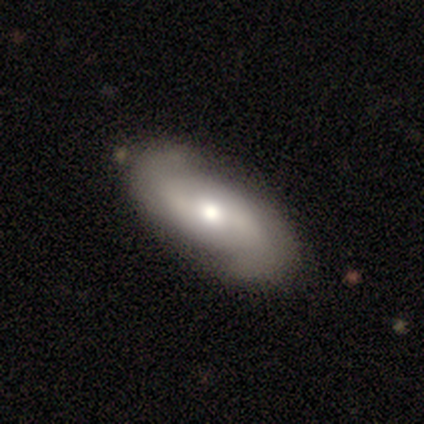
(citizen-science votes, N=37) Smooth or featured? 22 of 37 (59%) said featured or disk. Edge-on disk? 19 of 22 (86%) said no. Bar? 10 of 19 (53%) said no. Spiral arms? 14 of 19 (74%) said yes. Spiral winding? 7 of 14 (50%) said loose. Spiral arm count? 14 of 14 (100%) said 2. Bulge size? 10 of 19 (53%) said moderate. Merging? 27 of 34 (79%) said none.